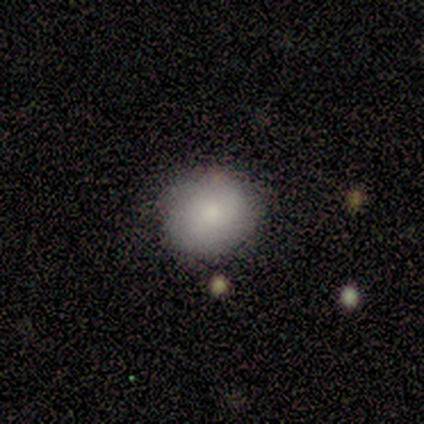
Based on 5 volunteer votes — A smooth galaxy with no disk features (60%) that is round (67%). Merging: none (75%).